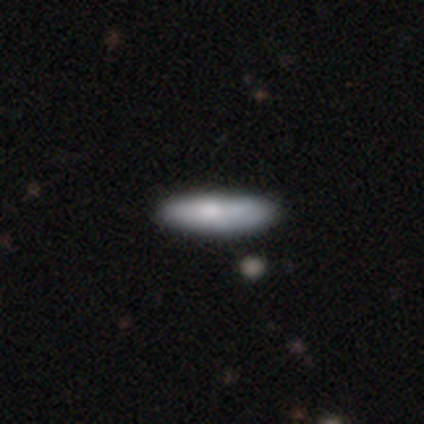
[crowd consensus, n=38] Volunteers were most divided on "how rounded": in between: 56%, cigar-shaped: 44%, round: 0%. More confident: smooth or featured — smooth (71%); merging — none (66%).